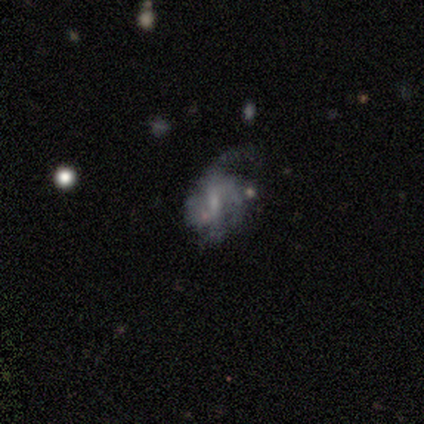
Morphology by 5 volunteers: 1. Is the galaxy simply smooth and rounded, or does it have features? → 60% featured or disk, 40% smooth, 0% star or artifact.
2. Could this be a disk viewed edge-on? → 100% no, 0% yes.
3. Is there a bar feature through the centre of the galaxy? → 67% weak, 33% strong, 0% no.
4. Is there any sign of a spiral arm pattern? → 100% yes, 0% no.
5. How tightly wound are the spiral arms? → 100% loose, 0% tight, 0% medium.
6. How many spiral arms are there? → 33% 2 (tied), 33% 3 (tied), 33% can't tell (tied), 0% 1, 0% 4, 0% more than 4.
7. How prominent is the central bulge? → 33% moderate (tied), 33% small (tied), 33% none (tied), 0% dominant, 0% large.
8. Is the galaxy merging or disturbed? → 40% none, 20% minor disturbance, 20% major disturbance, 20% merger.